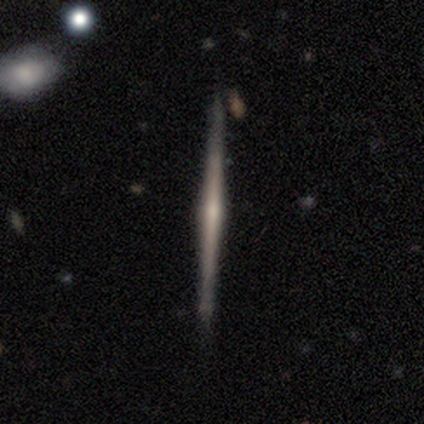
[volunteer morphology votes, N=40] A featured or disk galaxy (80%) viewed edge-on (100%) with a rounded central bulge (62%). Merging: none (95%).